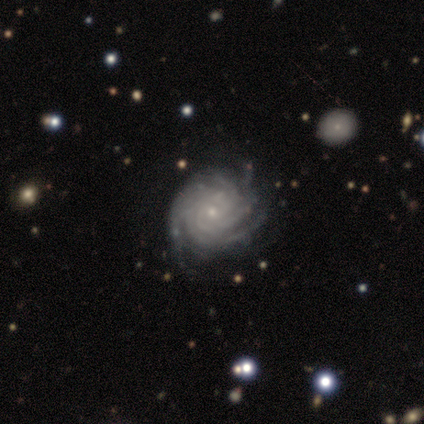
Smooth or featured? featured or disk (100%)
Edge-on disk? no (100%)
Bar? no (75%)
Spiral arms? yes (100%)
Spiral winding? tight (75%)
Spiral arm count? 2 (50%, tied with more than 4)
Bulge size? small (75%)
Merging? none (75%)